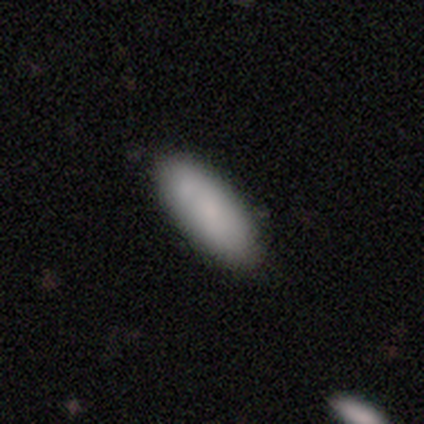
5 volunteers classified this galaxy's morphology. type=smooth (100%); roundness=in between (80%); merging=none (80%).